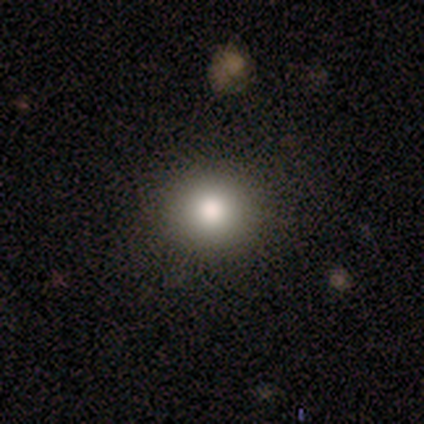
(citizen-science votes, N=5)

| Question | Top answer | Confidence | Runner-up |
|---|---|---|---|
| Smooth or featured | smooth | 100% | — |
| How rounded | round | 80% | in between (20%) |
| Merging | none | 100% | — |